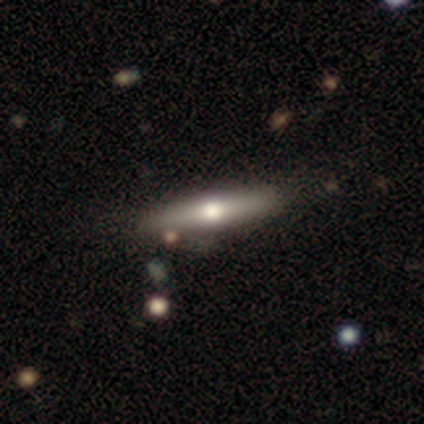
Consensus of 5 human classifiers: Smooth or featured? 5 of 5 (100%) said featured or disk. Edge-on disk? 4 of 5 (80%) said yes. Edge-on bulge? 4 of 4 (100%) said rounded. Merging? 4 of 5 (80%) said none.